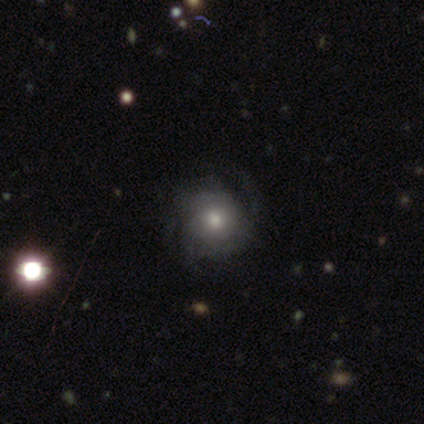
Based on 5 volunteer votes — A featured or disk galaxy (60%) with no bar (67%), 3 (100%) medium (100%) spiral arms (67%) and a moderate central bulge (100%). Merging: none (80%).